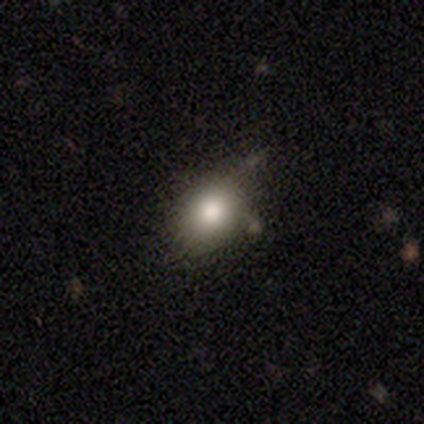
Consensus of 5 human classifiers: Q: Smooth or featured?
A: smooth (100%)
Q: How rounded?
A: in between (60%); runner-up: round (40%)
Q: Merging?
A: minor disturbance (60%); runner-up: none (20%)